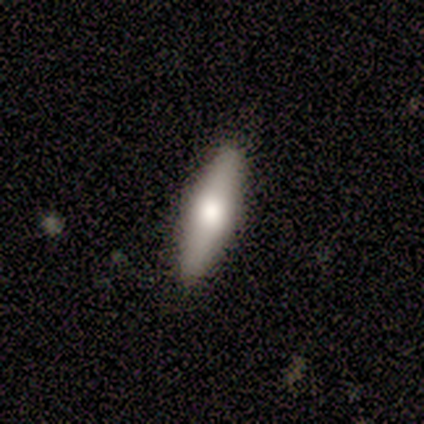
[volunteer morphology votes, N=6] Overall: smooth (67%; featured or disk 33%). How rounded: cigar-shaped (75%). Merging: none (100%).